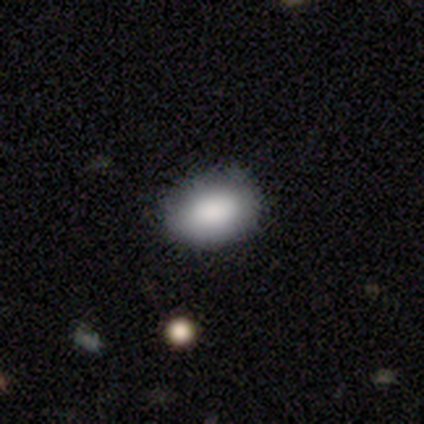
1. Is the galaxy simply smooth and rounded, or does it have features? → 79% smooth, 13% star or artifact, 8% featured or disk.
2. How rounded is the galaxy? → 84% in between, 16% round, 0% cigar-shaped.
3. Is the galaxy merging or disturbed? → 91% none, 6% minor disturbance, 3% major disturbance, 0% merger.